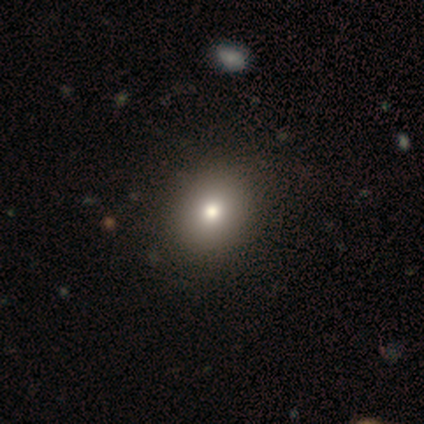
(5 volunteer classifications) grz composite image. It shows a smooth galaxy with no disk features (80%) that is round (100%). Merging: none (75%).